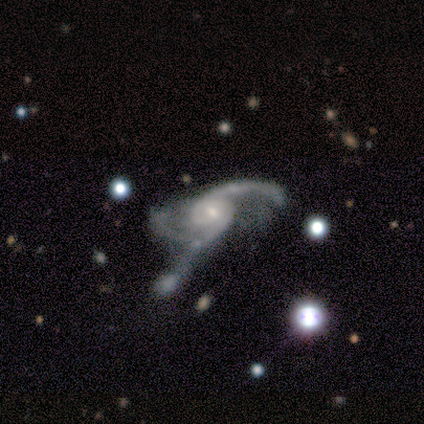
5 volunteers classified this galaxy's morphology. Smooth or featured? featured or disk (100%)
Edge-on disk? no (100%)
Bar? no (60%)
Spiral arms? yes (100%)
Spiral winding? medium (60%)
Spiral arm count? 2 (40%, tied with 3)
Bulge size? small (100%)
Merging? major disturbance (80%)